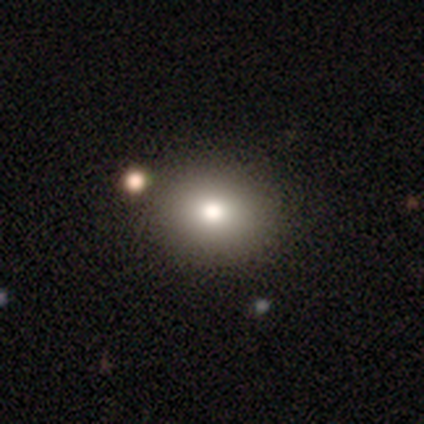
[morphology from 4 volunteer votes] Smooth or featured? smooth (75%)
How rounded? round (67%)
Merging? none (100%)